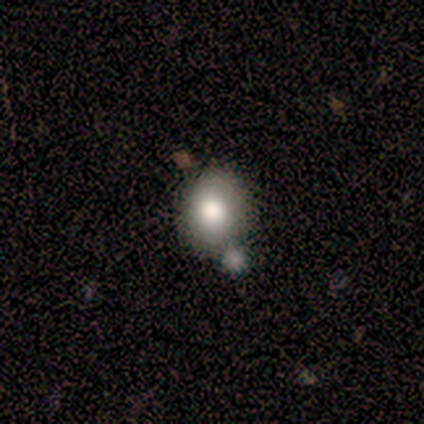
Q: Smooth or featured?
A: smooth (100%)
Q: How rounded?
A: in between (80%); runner-up: round (20%)
Q: Merging?
A: minor disturbance (60%); runner-up: none (40%)